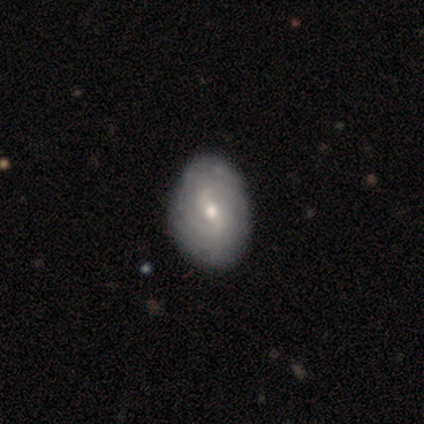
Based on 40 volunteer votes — Smooth or featured?
  - featured or disk: 78% *
  - smooth: 18%
  - star or artifact: 5%
Edge-on disk?
  - no: 100% *
  - yes: 0%
Bar?
  - weak: 65% *
  - no: 26%
  - strong: 10%
Spiral arms?
  - yes: 94% *
  - no: 6%
Spiral winding?
  - tight: 66% *
  - medium: 24%
  - loose: 10%
Spiral arm count?
  - can't tell: 52% *
  - 2: 28%
  - 3: 7%
  - 4: 7%
  - more than 4: 7%
  - 1: 0%
Bulge size?
  - moderate: 52% *
  - small: 45%
  - none: 3%
  - dominant: 0%
  - large: 0%
Merging?
  - none: 79% *
  - minor disturbance: 8%
  - major disturbance: 0%
  - merger: 0%